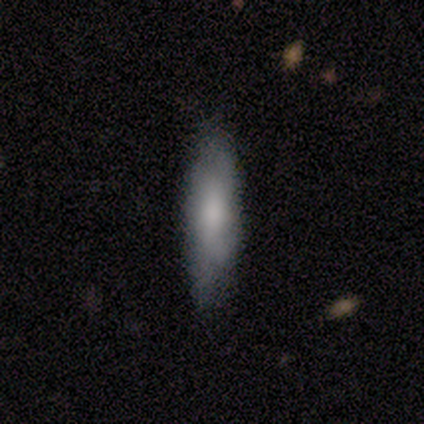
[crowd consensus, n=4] A smooth galaxy with no disk features (75%) that is cigar-shaped (100%). Merging: none (100%).